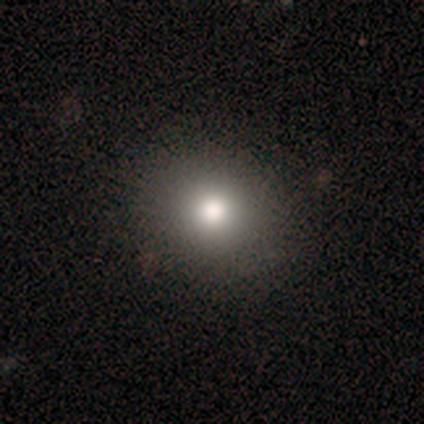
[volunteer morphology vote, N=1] A smooth galaxy with no disk features (100%) that is round (100%).

Vote fractions:
- Smooth or featured? smooth: 100% / featured or disk: 0% / star or artifact: 0%
- How rounded? round: 100% / in between: 0% / cigar-shaped: 0%
- Merging? minor disturbance: 100% / none: 0% / major disturbance: 0% / merger: 0%